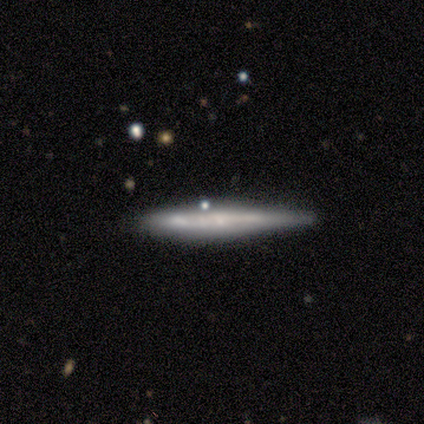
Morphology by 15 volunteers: A smooth galaxy with no disk features (53%) that is cigar-shaped (100%).

Vote fractions:
- Smooth or featured? smooth: 53% / featured or disk: 33% / star or artifact: 13%
- How rounded? cigar-shaped: 100% / round: 0% / in between: 0%
- Merging? none: 62% / major disturbance: 15% / merger: 15% / minor disturbance: 8%